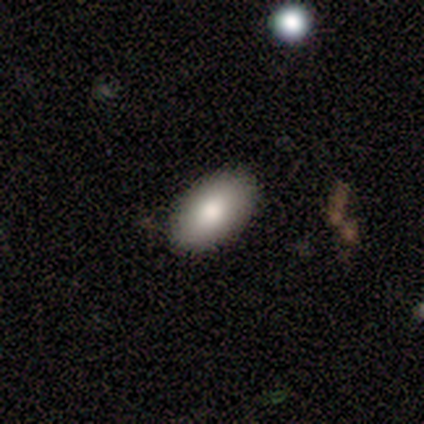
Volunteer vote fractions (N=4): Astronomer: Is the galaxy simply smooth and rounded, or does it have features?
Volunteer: smooth — 75%.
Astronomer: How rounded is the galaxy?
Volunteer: in between — 100%.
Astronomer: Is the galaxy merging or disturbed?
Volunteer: none — 75%.